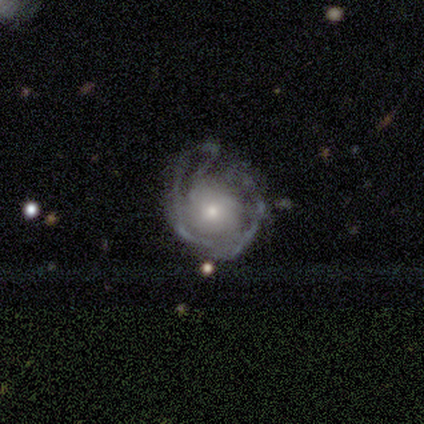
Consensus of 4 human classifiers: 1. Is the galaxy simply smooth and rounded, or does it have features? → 50% smooth (tied), 50% featured or disk (tied), 0% star or artifact.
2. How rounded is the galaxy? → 50% round (tied), 50% in between (tied), 0% cigar-shaped.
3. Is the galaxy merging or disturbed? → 50% major disturbance, 25% none, 25% minor disturbance, 0% merger.